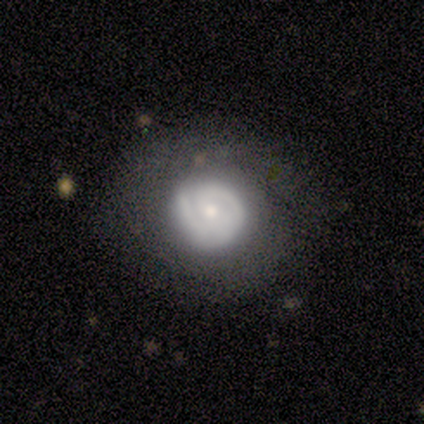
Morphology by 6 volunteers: smooth-or-featured: featured or disk: 100% | smooth: 0% | star or artifact: 0%
  disk-edge-on: no: 100% | yes: 0%
    bar: no: 67% | weak: 33% | strong: 0%
    has-spiral-arms: yes: 100% | no: 0%
      spiral-winding: tight: 67% | medium: 33% | loose: 0%
      spiral-arm-count: 2: 33% (tied) | 3: 33% (tied) | 1: 17% | can't tell: 17% | 4: 0% | more than 4: 0%
    bulge-size: small: 67% | moderate: 33% | dominant: 0% | large: 0% | none: 0%
  merging: none: 83% | minor disturbance: 17% | major disturbance: 0% | merger: 0%